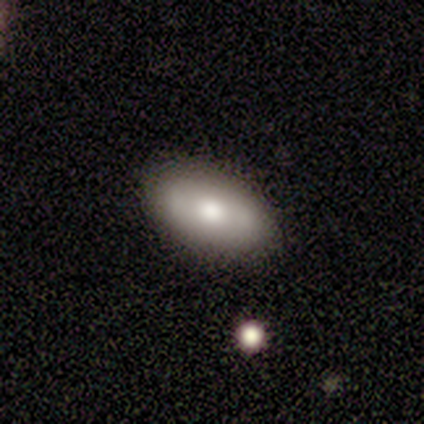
Smooth or featured?
  - featured or disk: 60% *
  - smooth: 40%
  - star or artifact: 0%
Edge-on disk?
  - no: 67% *
  - yes: 33%
Bar?
  - strong: 100% *
  - weak: 0%
  - no: 0%
Spiral arms?
  - no: 100% *
  - yes: 0%
Bulge size?
  - large: 50% * (tied)
  - moderate: 50% * (tied)
  - dominant: 0%
  - small: 0%
  - none: 0%
Merging?
  - none: 80% *
  - minor disturbance: 20%
  - major disturbance: 0%
  - merger: 0%